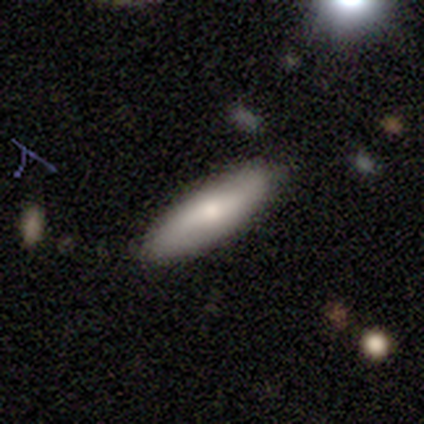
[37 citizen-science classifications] Overall: smooth (81%). How rounded: cigar-shaped (67%; in between 33%). Merging: none (95%).